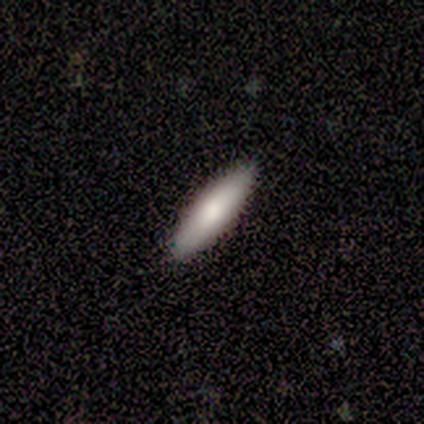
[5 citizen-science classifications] smooth_or_featured: smooth (p=0.40) [tied with: featured or disk p=0.40]
how_rounded: in between (p=1.00)
merging: none (p=0.50) [tied with: merger p=0.50]